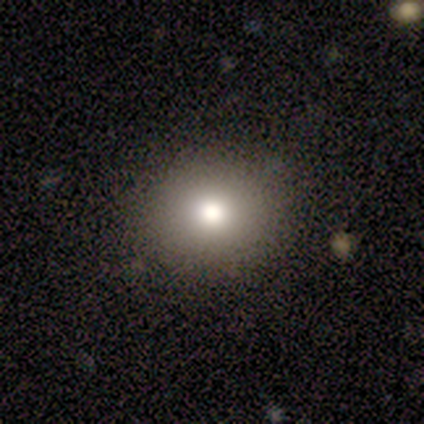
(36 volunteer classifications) A smooth galaxy with no disk features (64%) that is round (83%).

Vote fractions:
- Smooth or featured? smooth: 64% / featured or disk: 19% / star or artifact: 17%
- How rounded? round: 83% / in between: 17% / cigar-shaped: 0%
- Merging? none: 87% / minor disturbance: 13% / major disturbance: 0% / merger: 0%